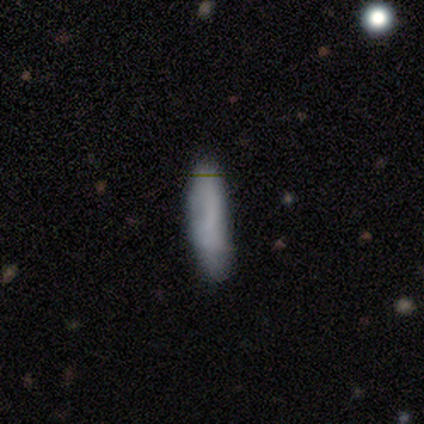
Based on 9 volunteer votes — A smooth galaxy with no disk features (56%) that is cigar-shaped (60%). Merging: none (56%).